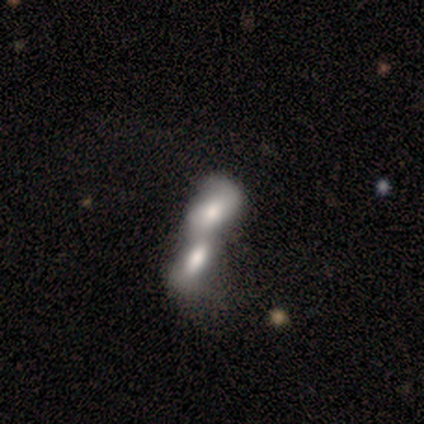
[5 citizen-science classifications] smooth-or-featured: featured or disk: 60% | smooth: 20% | star or artifact: 20%
  disk-edge-on: no: 100% | yes: 0%
    bar: weak: 67% | strong: 33% | no: 0%
    has-spiral-arms: yes: 100% | no: 0%
      spiral-winding: loose: 100% | tight: 0% | medium: 0%
      spiral-arm-count: 2: 67% | can't tell: 33% | 1: 0% | 3: 0% | 4: 0% | more than 4: 0%
    bulge-size: moderate: 67% | large: 33% | dominant: 0% | small: 0% | none: 0%
  merging: merger: 100% | none: 0% | minor disturbance: 0% | major disturbance: 0%